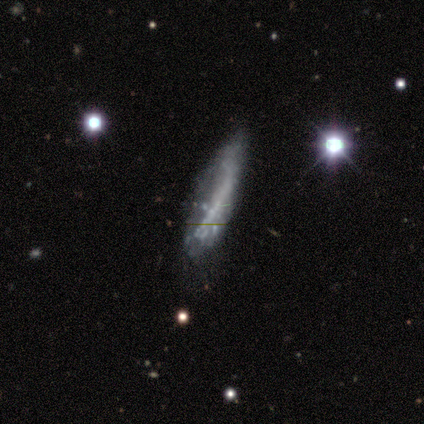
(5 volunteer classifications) smooth 60%, featured or disk 40%, star or artifact 0%. Down the decision tree: how rounded — cigar-shaped (67%); merging — none (40%, tied with minor disturbance).